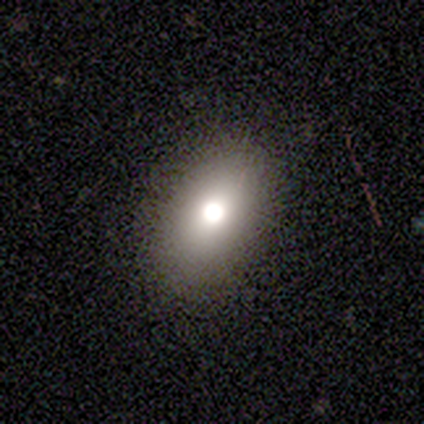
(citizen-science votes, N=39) This appears to be a smooth galaxy with no disk features (69%) that is in between round and cigar-shaped (93%). Merging: none (91%).